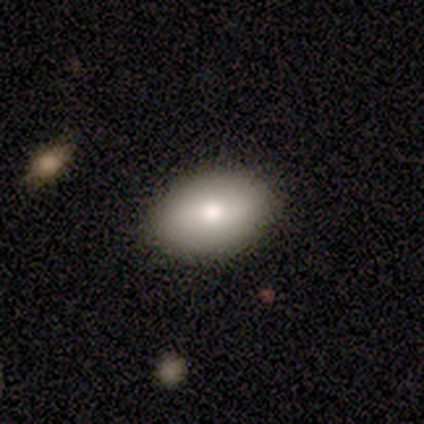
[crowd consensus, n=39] Smooth or featured? 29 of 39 (74%) said smooth. How rounded? 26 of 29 (90%) said in between. Merging? 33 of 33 (100%) said none.